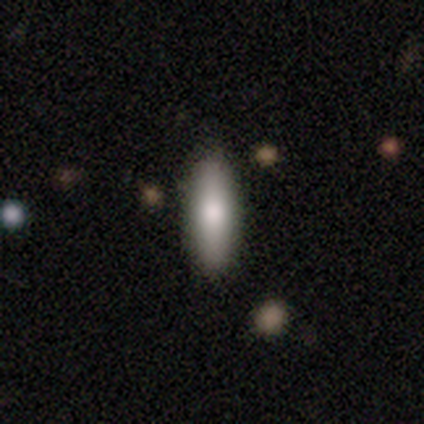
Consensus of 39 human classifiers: Volunteers were most divided on "how rounded": in between: 55%, cigar-shaped: 41%, round: 3%. Remaining: smooth or featured — smooth (74%); merging — none (43%).